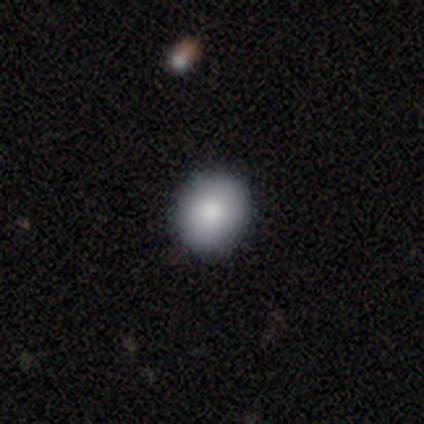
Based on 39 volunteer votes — This is likely a smooth galaxy (79%). How rounded: likely round (71%). Merging: clearly none (94%).